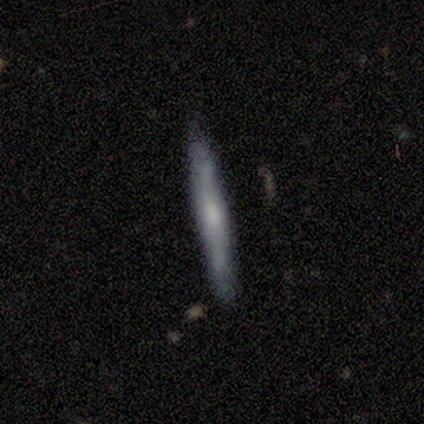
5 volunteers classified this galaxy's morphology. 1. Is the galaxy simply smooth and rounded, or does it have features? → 80% featured or disk, 20% smooth, 0% star or artifact.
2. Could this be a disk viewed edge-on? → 100% yes, 0% no.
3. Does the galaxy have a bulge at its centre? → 75% rounded, 25% none, 0% boxy.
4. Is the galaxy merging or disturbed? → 80% none, 20% minor disturbance, 0% major disturbance, 0% merger.